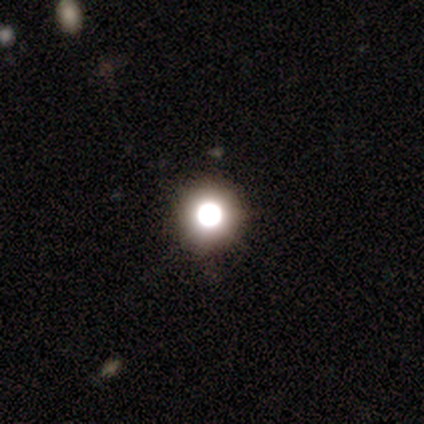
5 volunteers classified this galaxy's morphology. This appears to be a star or artifact, not a galaxy (80%).